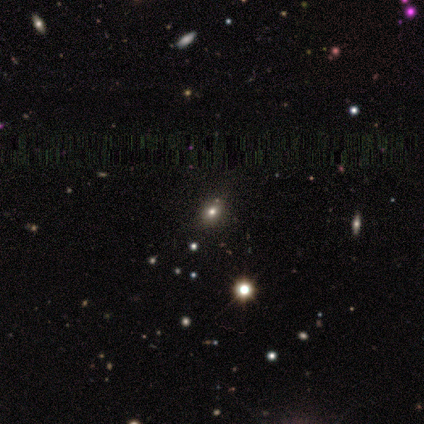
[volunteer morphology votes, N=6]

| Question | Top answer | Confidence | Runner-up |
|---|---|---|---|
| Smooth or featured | star or artifact | 50% | smooth (33%) |